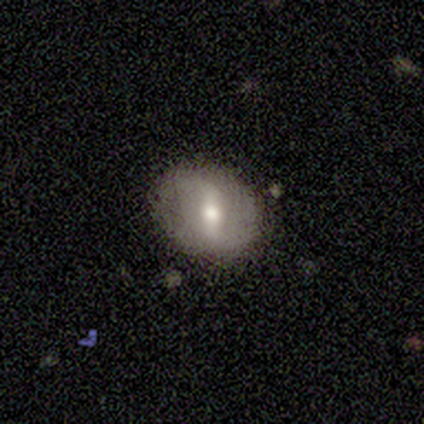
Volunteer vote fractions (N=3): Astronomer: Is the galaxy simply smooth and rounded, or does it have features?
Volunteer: smooth — 67%.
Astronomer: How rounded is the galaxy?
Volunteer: in between — 100%.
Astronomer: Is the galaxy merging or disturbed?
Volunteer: none — 67%.